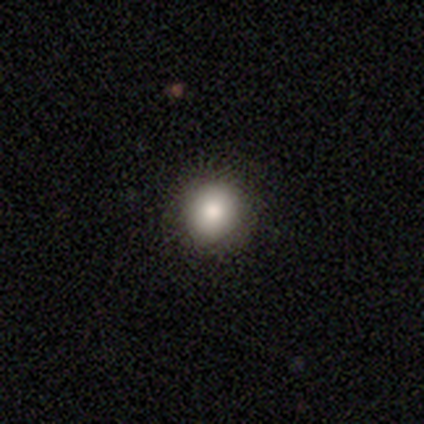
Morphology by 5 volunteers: smooth 80%, star or artifact 20%, featured or disk 0%. Down the decision tree: how rounded — round (75%); merging — none (100%).